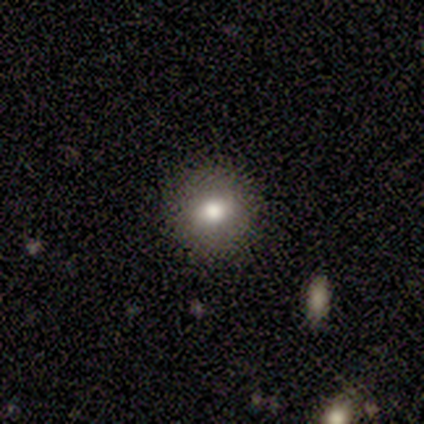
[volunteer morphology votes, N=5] Smooth or featured? smooth (100%)
How rounded? round (80%)
Merging? none (100%)